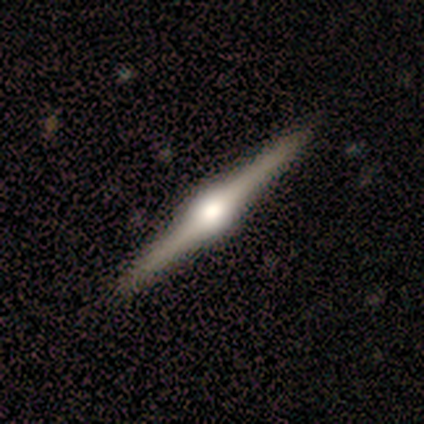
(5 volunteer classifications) This appears to be a featured or disk galaxy (100%) viewed edge-on (100%) with a rounded central bulge (100%). Merging: none (100%).